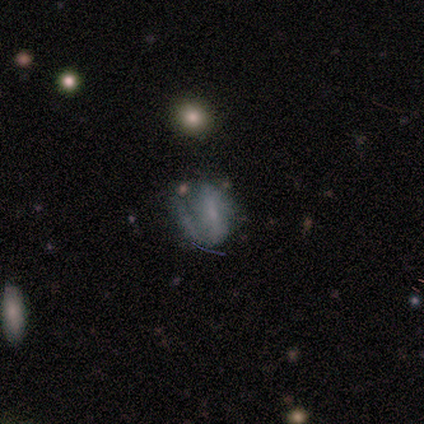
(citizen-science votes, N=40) smooth_or_featured: featured or disk (p=0.65) [alt: smooth p=0.20]
disk_edge_on: no (p=0.96) [alt: yes p=0.04]
bar: strong (p=0.44) [alt: weak p=0.32]
has_spiral_arms: yes (p=0.68) [alt: no p=0.32]
spiral_winding: medium (p=0.41) [tied with: loose p=0.41]
spiral_arm_count: 2 (p=0.59) [alt: 1 p=0.35]
bulge_size: small (p=0.60) [alt: none p=0.32]
merging: none (p=0.47) [alt: minor disturbance p=0.29]